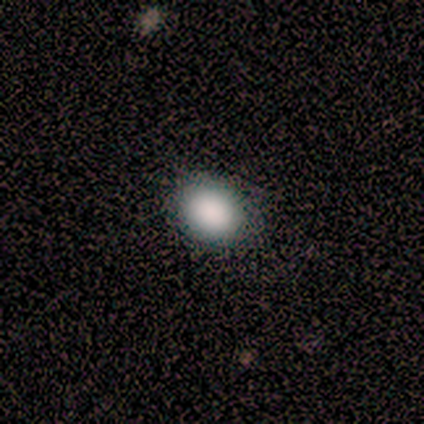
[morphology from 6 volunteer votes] type=smooth (100%); roundness=round (83%); merging=none (100%).